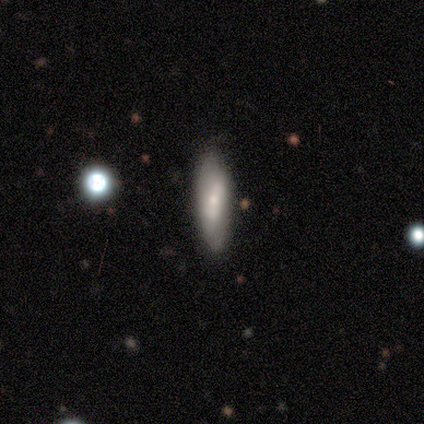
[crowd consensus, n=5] A smooth galaxy with no disk features (100%) that is cigar-shaped (60%).

Vote fractions:
- Smooth or featured? smooth: 100% / featured or disk: 0% / star or artifact: 0%
- How rounded? cigar-shaped: 60% / in between: 40% / round: 0%
- Merging? none: 80% / minor disturbance: 20% / major disturbance: 0% / merger: 0%